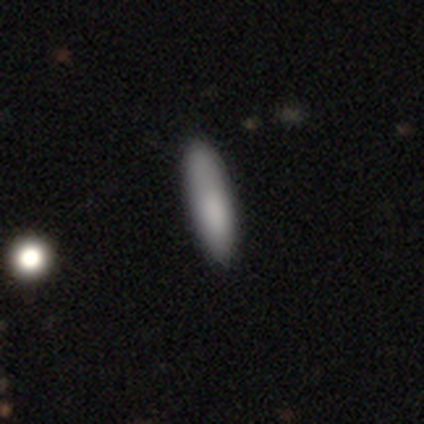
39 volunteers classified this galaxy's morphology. Volunteers were most divided on "how rounded": cigar-shaped: 85%, in between: 15%, round: 0%. More confident: smooth or featured — smooth (85%); merging — none (83%).